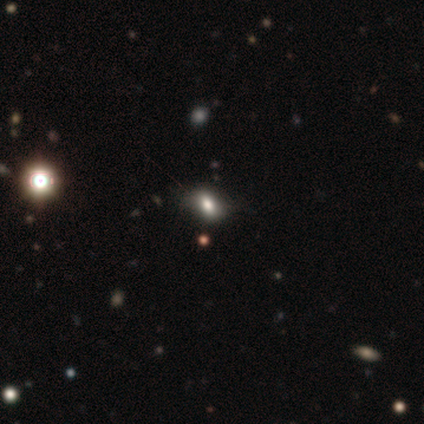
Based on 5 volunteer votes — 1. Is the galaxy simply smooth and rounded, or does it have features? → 60% smooth, 40% star or artifact, 0% featured or disk.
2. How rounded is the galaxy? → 67% in between, 33% round, 0% cigar-shaped.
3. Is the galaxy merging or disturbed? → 67% none, 33% minor disturbance, 0% major disturbance, 0% merger.